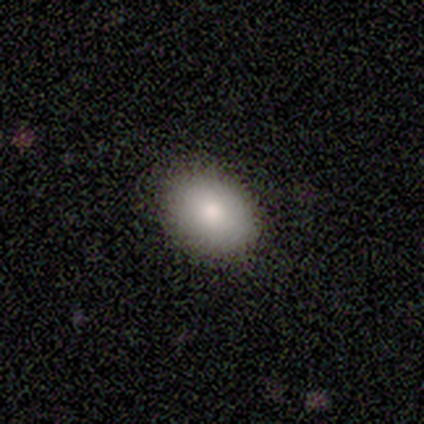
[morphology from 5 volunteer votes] Overall: smooth (80%). How rounded: in between (75%). Merging: none (75%).